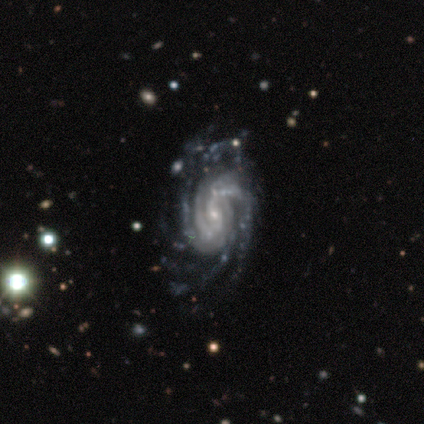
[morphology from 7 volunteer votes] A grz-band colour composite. It shows a featured or disk galaxy (100%) with no bar (43%), 4 (71%) tight (57%) spiral arms (100%) and a small central bulge (86%). Merging: none (71%).